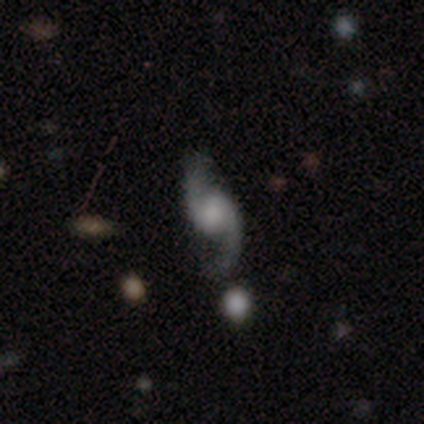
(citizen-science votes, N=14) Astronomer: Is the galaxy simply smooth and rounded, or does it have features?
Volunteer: featured or disk — 86%.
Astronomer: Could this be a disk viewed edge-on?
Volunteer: no — 100%.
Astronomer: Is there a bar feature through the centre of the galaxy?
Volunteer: weak — 58% (runner-up: no, 42%).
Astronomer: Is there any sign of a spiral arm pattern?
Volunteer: yes — 100%.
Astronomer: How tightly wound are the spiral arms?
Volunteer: loose — 75%.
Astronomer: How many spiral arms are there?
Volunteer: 2 — 100%.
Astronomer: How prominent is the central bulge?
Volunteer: small — 33%, tied with none at 33%.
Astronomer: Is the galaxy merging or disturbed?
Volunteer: none — 71%.